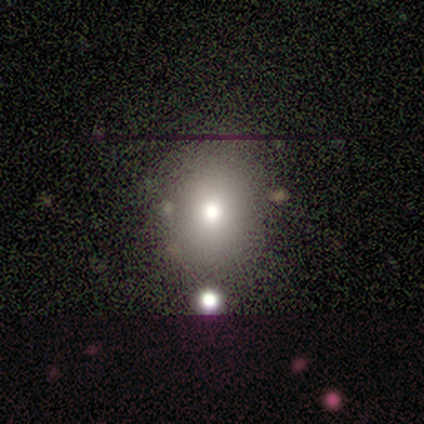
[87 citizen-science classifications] Overall: smooth (67%). How rounded: round (62%; in between 38%). Merging: none (69%).